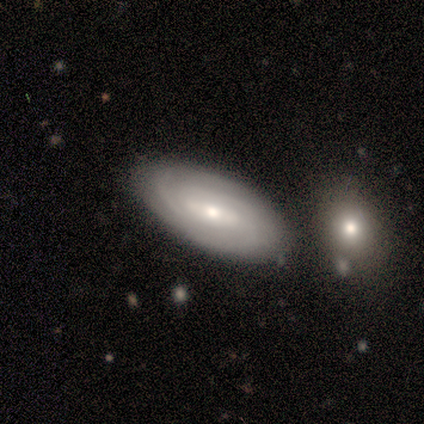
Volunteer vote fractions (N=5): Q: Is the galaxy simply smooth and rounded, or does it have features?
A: featured or disk — 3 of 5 (60%).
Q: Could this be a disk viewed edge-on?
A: no — 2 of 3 (67%).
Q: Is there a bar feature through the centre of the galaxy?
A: strong — 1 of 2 (50%, tied with no).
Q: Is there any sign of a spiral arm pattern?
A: yes — 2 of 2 (100%).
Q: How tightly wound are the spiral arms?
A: tight — 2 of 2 (100%).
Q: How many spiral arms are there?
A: can't tell — 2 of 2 (100%).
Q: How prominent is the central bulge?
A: small — 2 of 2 (100%).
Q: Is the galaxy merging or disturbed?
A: none — 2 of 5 (40%, tied with minor disturbance).